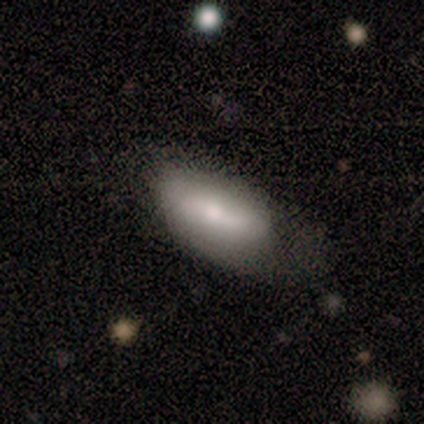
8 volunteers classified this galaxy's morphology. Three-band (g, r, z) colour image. It shows a smooth galaxy with no disk features (88%) that is in between round and cigar-shaped (100%). Merging: none (50%, tied with minor disturbance).